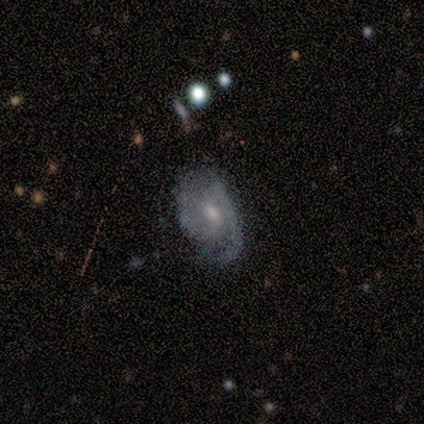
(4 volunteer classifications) This is clearly a featured or disk galaxy (100%). It is clearly not viewed edge-on (100%). Bar: possibly weak (50%, tied with no). Spiral arm pattern: clearly yes (100%). Spiral arm count: clearly 2 (100%). Spiral winding: possibly loose (50%). Central bulge: likely moderate (75%). Merging: likely minor disturbance (75%).